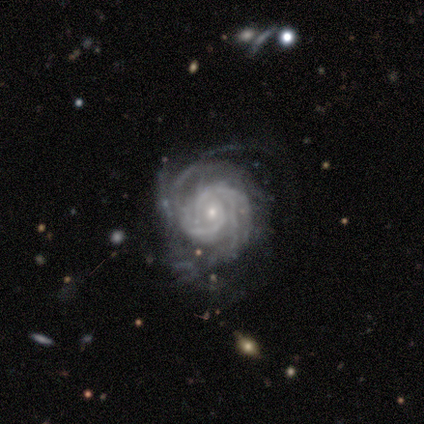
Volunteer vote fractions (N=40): Smooth or featured: featured or disk — 92% (star or artifact — 8%)
Edge-on disk: no — 100%
Bar: no — 73% (weak — 24%)
Spiral arms: yes — 100%
Spiral winding: tight — 76% (medium — 19%)
Spiral arm count: 2 — 24% (more than 4 — 22%)
Bulge size: small — 81% (moderate — 16%)
Merging: none — 65% (major disturbance — 19%)